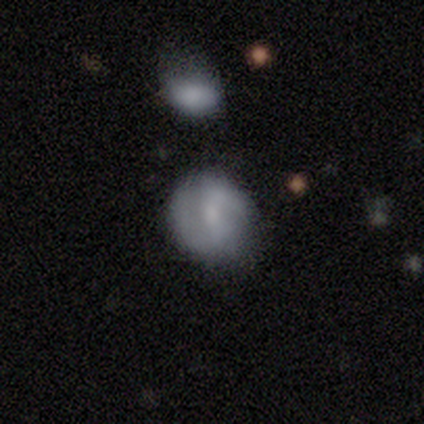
Smooth or featured?
  - featured or disk: 67% *
  - smooth: 17%
  - star or artifact: 17%
Edge-on disk?
  - no: 75% *
  - yes: 25%
Bar?
  - weak: 67% *
  - no: 33%
  - strong: 0%
Spiral arms?
  - yes: 100% *
  - no: 0%
Spiral winding?
  - medium: 67% *
  - tight: 33%
  - loose: 0%
Spiral arm count?
  - 2: 67% *
  - can't tell: 33%
  - 1: 0%
  - 3: 0%
  - 4: 0%
  - more than 4: 0%
Bulge size?
  - small: 67% *
  - none: 33%
  - dominant: 0%
  - large: 0%
  - moderate: 0%
Merging?
  - minor disturbance: 60% *
  - none: 40%
  - major disturbance: 0%
  - merger: 0%